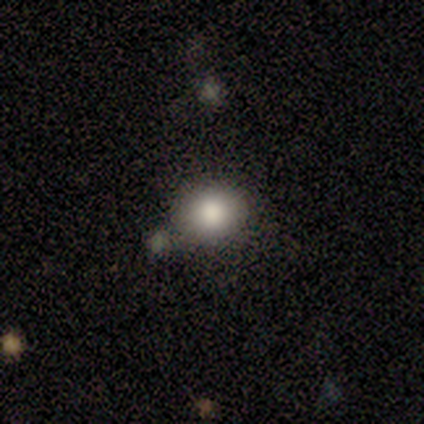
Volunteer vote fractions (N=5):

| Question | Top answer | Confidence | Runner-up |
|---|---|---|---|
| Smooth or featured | smooth | 100% | — |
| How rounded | round | 80% | in between (20%) |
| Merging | none | 100% | — |